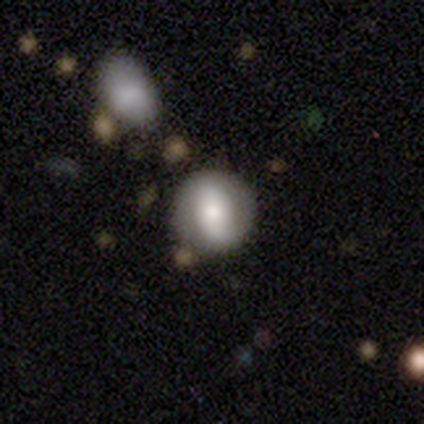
Q: Smooth or featured?
A: smooth (59%); runner-up: featured or disk (31%)
Q: How rounded?
A: round (87%); runner-up: in between (13%)
Q: Merging?
A: none (83%); runner-up: minor disturbance (9%)